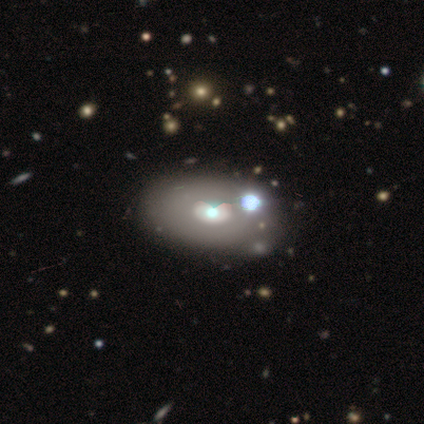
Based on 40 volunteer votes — Volunteers were most divided on "smooth or featured": smooth: 48%, featured or disk: 35%, star or artifact: 18%. More confident: how rounded — in between (89%); merging — none (52%).